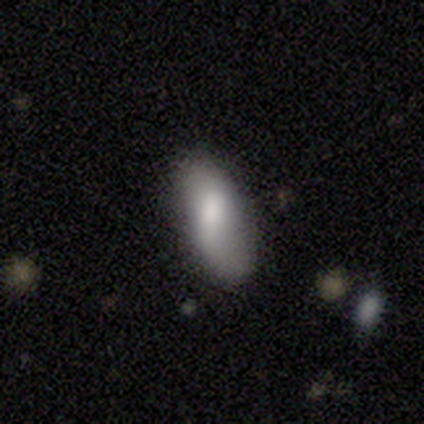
Smooth or featured? 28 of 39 (72%) said smooth. How rounded? 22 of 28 (79%) said in between. Merging? 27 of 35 (77%) said none.